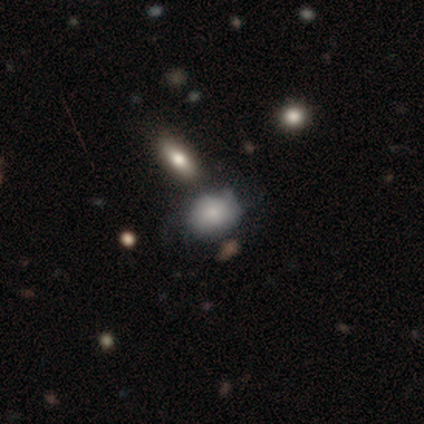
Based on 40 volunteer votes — Smooth or featured?
  - smooth: 70% *
  - featured or disk: 28%
  - star or artifact: 2%
How rounded?
  - round: 50% * (tied)
  - in between: 50% * (tied)
  - cigar-shaped: 0%
Merging?
  - none: 26% *
  - merger: 18%
  - minor disturbance: 10%
  - major disturbance: 10%